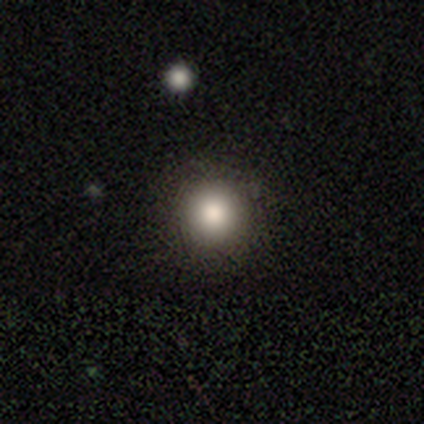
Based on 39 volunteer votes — This is likely a smooth galaxy (72%). How rounded: clearly round (96%). Merging: clearly none (94%).